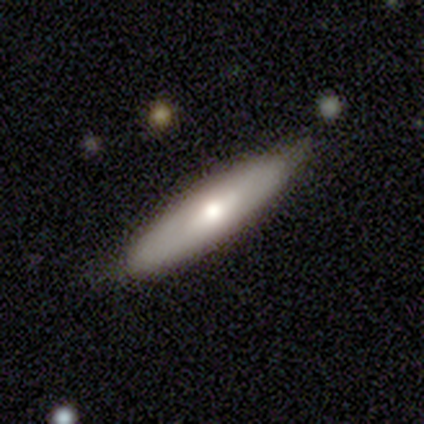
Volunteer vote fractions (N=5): This is clearly a smooth galaxy (80%). How rounded: likely cigar-shaped (75%). Merging: clearly none (80%).